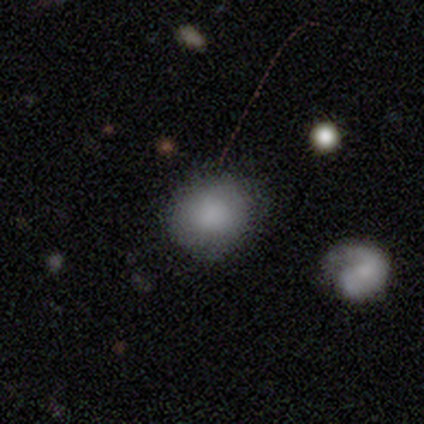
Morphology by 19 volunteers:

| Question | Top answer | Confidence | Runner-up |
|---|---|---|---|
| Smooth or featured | smooth | 89% | star or artifact (11%) |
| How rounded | round | 82% | in between (18%) |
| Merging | none | 82% | minor disturbance (18%) |